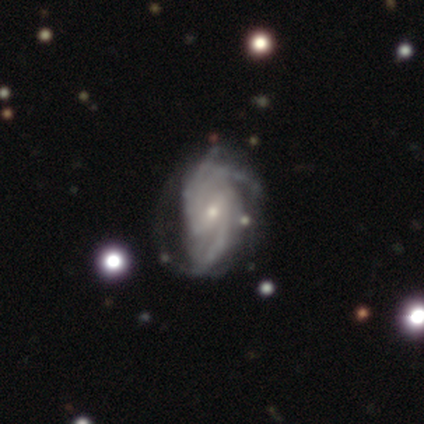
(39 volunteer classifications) Smooth or featured?
  - featured or disk: 92% *
  - smooth: 5%
  - star or artifact: 3%
Edge-on disk?
  - no: 100% *
  - yes: 0%
Bar?
  - weak: 53% *
  - no: 33%
  - strong: 14%
Spiral arms?
  - yes: 100% *
  - no: 0%
Spiral winding?
  - tight: 53% *
  - medium: 42%
  - loose: 6%
Spiral arm count?
  - 3: 31% *
  - 2: 28%
  - can't tell: 28%
  - more than 4: 8%
  - 4: 6%
  - 1: 0%
Bulge size?
  - small: 78% *
  - moderate: 19%
  - dominant: 3%
  - large: 0%
  - none: 0%
Merging?
  - none: 66% *
  - major disturbance: 21%
  - minor disturbance: 13%
  - merger: 0%